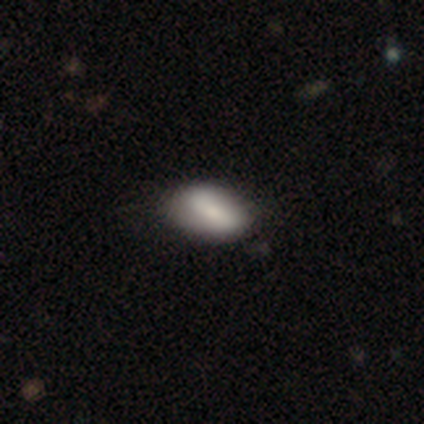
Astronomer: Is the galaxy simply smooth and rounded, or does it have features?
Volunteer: smooth — 80%.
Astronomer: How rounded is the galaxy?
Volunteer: in between — 100%.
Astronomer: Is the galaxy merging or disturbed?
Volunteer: minor disturbance — 60% (runner-up: none, 40%).